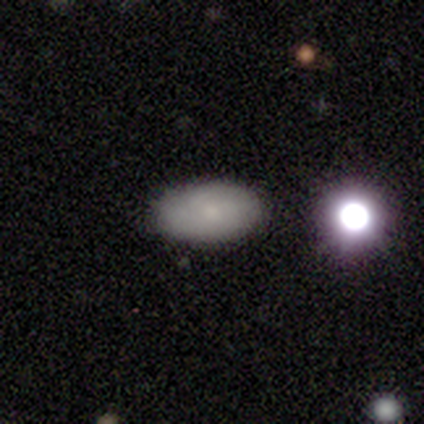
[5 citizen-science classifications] Q: Smooth or featured?
A: smooth (80%); runner-up: featured or disk (20%)
Q: How rounded?
A: in between (100%)
Q: Merging?
A: none (80%); runner-up: minor disturbance (20%)